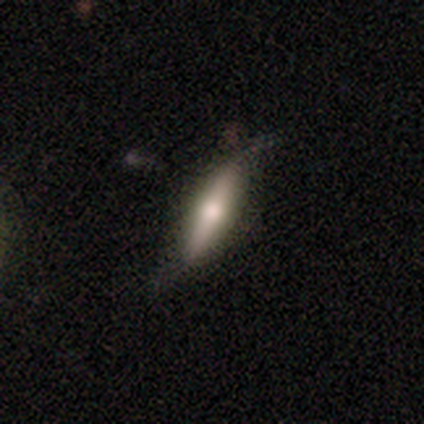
Smooth or featured?
  - smooth: 47% * (tied)
  - featured or disk: 47% * (tied)
  - star or artifact: 6%
How rounded?
  - cigar-shaped: 75% *
  - in between: 25%
  - round: 0%
Merging?
  - none: 62% *
  - minor disturbance: 31%
  - major disturbance: 6%
  - merger: 1%